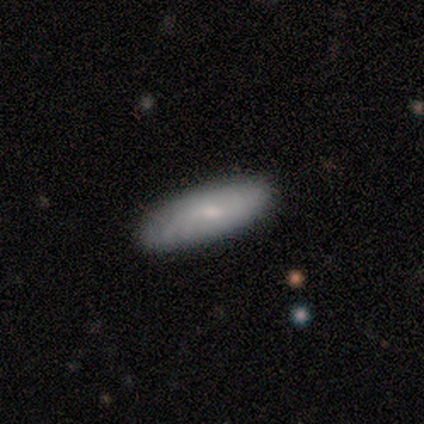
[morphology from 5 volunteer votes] Smooth or featured: smooth — 100%
How rounded: in between — 60% (cigar-shaped — 40%)
Merging: none — 100%